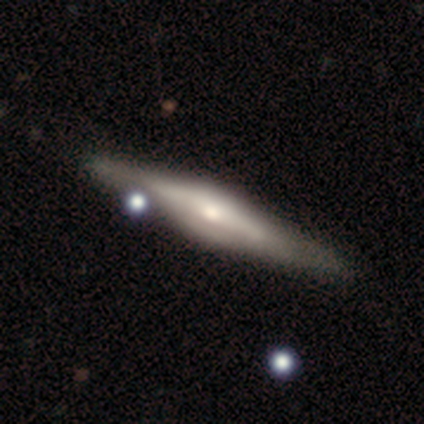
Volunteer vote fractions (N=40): This appears to be a featured or disk galaxy (72%) viewed edge-on (97%) with a rounded central bulge (75%). Merging: none (65%).